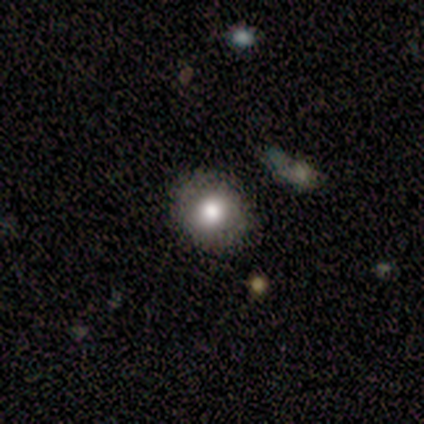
Volunteers were most divided on "how rounded": round: 80%, in between: 20%, cigar-shaped: 0%. More confident: smooth or featured — smooth (100%); merging — none (100%).